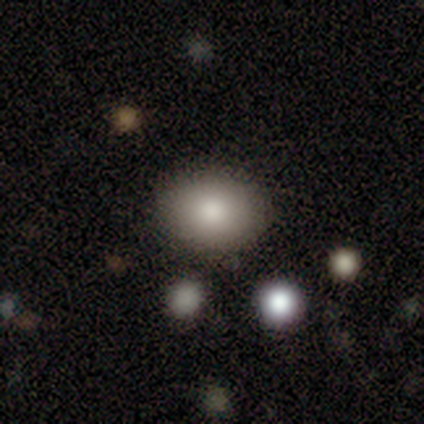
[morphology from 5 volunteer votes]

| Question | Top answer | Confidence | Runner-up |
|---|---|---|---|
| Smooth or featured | smooth | 100% | — |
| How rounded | in between | 100% | — |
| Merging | none | 100% | — |